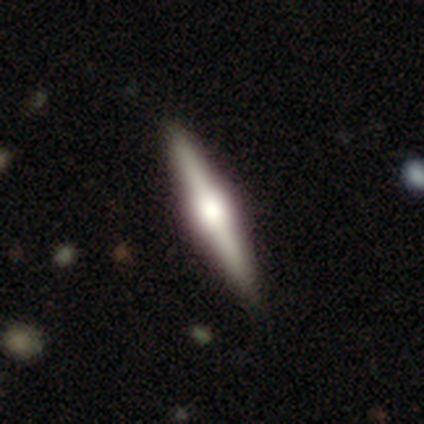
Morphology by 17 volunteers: This is clearly a featured or disk galaxy (94%). It is clearly viewed edge-on (100%). Edge-on bulge: clearly rounded (88%). Merging: clearly none (94%).